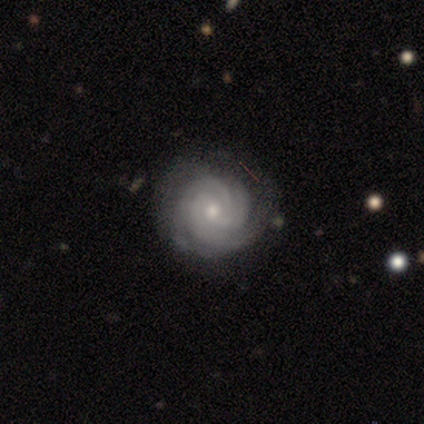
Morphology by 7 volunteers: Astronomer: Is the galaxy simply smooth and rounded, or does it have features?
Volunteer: featured or disk — 86%.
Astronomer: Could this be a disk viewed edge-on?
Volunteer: no — 100%.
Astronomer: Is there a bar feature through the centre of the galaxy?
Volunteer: no — 67%.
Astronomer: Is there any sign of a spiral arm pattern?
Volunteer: yes — 100%.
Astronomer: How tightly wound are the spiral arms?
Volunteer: tight — 67%.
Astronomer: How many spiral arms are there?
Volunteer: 3 — 33%, tied with more than 4 and can't tell at 33%.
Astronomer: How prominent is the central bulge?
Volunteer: moderate — 50%, tied with small at 50%.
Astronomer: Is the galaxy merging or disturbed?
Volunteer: none — 50%.